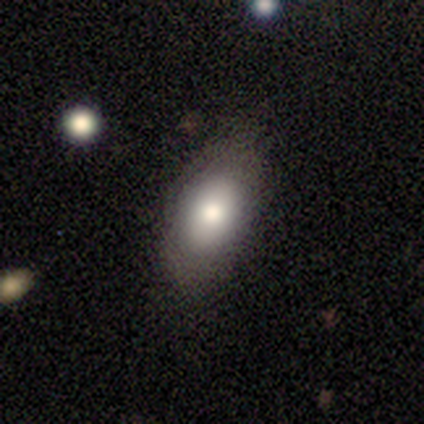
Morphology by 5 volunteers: smooth-or-featured: smooth: 60% | featured or disk: 20% | star or artifact: 20%
  how-rounded: in between: 100% | round: 0% | cigar-shaped: 0%
  merging: none: 75% | major disturbance: 25% | minor disturbance: 0% | merger: 0%